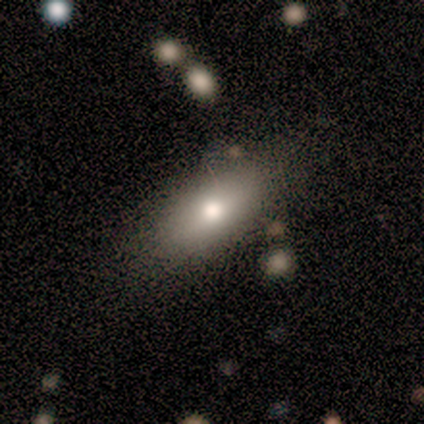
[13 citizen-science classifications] smooth_or_featured: smooth (p=0.85) [alt: featured or disk p=0.15]
how_rounded: in between (p=0.82) [alt: cigar-shaped p=0.18]
merging: none (p=0.85) [alt: minor disturbance p=0.08]